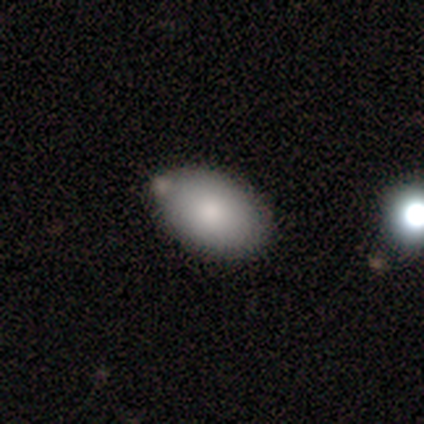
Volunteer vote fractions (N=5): Smooth or featured?
  - smooth: 80% *
  - featured or disk: 20%
  - star or artifact: 0%
How rounded?
  - in between: 75% *
  - round: 25%
  - cigar-shaped: 0%
Merging?
  - none: 40% * (tied)
  - minor disturbance: 40% * (tied)
  - merger: 20%
  - major disturbance: 0%